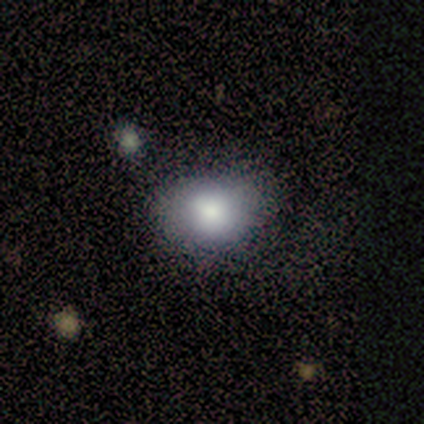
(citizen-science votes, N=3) Smooth or featured? 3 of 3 (100%) said smooth. How rounded? 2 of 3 (67%) said in between. Merging? 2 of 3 (67%) said minor disturbance.